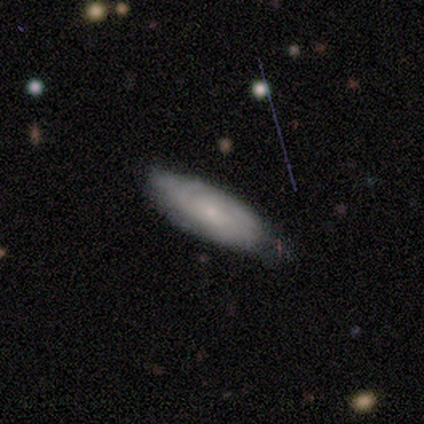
Volunteers were most divided on "bulge size": small: 52%, moderate: 38%, large: 7%, none: 3%, dominant: 0%. More confident: spiral arms — yes (86%); edge-on disk — no (85%); bar — no (72%); spiral arm count — can't tell (72%); spiral winding — tight (68%); smooth or featured — featured or disk (67%); merging — none (56%).